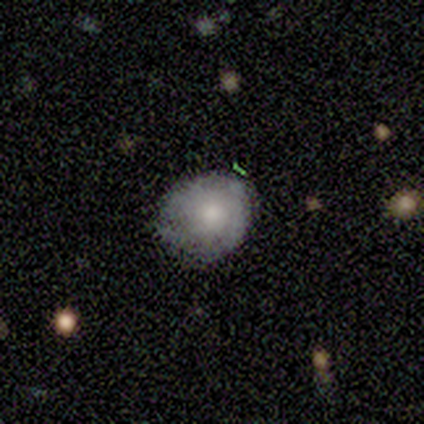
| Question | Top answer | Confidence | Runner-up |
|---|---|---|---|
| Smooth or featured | smooth | 40% | tied: featured or disk (40%) |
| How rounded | round | 100% | — |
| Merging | none | 75% | minor disturbance (25%) |